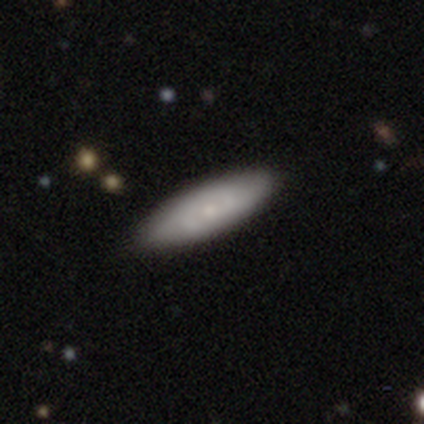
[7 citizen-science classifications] Q: Smooth or featured?
A: smooth (71%); runner-up: featured or disk (29%)
Q: How rounded?
A: cigar-shaped (80%); runner-up: in between (20%)
Q: Merging?
A: none (100%)